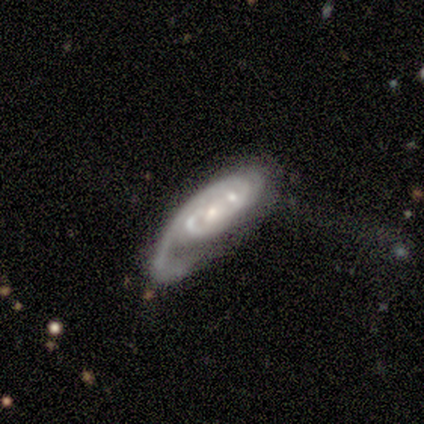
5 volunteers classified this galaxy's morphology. type=featured or disk (100%); edge-on=no (100%); bar=no (100%); spiral arms=yes (80%); winding=tight (75%); arm count=1 (75%); bulge=small (80%); merging=merger (60%).